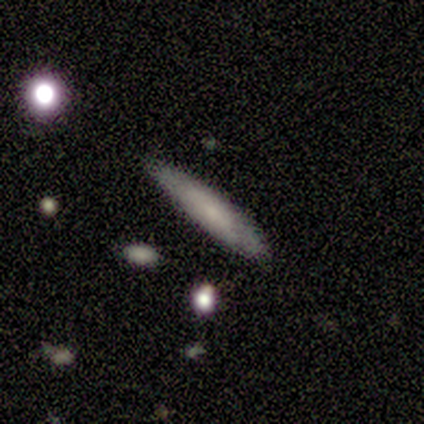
Smooth or featured? 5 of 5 (100%) said smooth. How rounded? 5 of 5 (100%) said cigar-shaped. Merging? 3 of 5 (60%) said none.